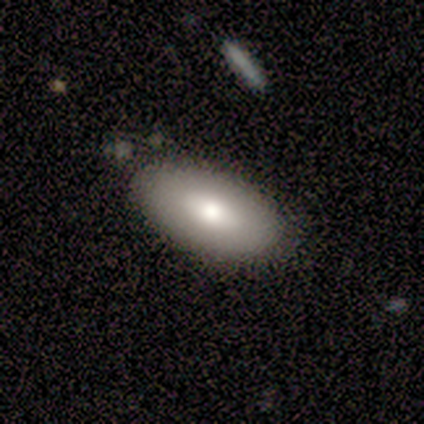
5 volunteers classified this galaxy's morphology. Smooth or featured: smooth — 80% (featured or disk — 20%)
How rounded: in between — 100%
Merging: none — 100%